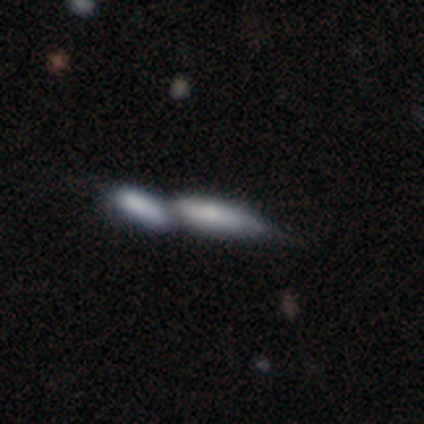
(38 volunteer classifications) Overall: smooth (74%). How rounded: cigar-shaped (57%; in between 43%). Merging: merger (67%).